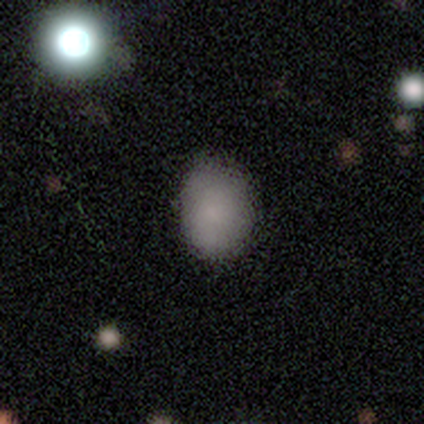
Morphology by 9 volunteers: This is likely a smooth galaxy (78%). How rounded: clearly in between (100%). Merging: possibly none (57%).